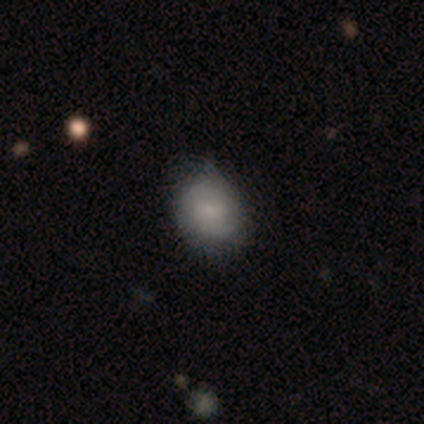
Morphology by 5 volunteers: type=smooth (80%); roundness=in between (100%); merging=none (80%).